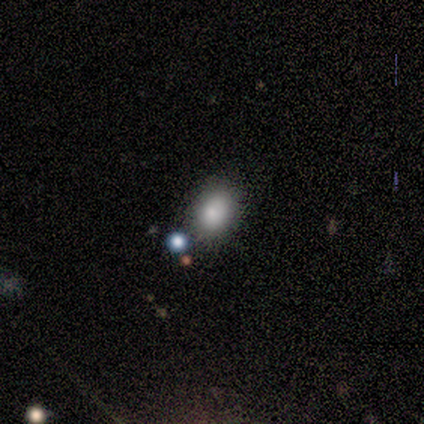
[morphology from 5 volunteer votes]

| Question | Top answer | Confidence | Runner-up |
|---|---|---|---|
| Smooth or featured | smooth | 80% | featured or disk (20%) |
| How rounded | in between | 100% | — |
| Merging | none | 80% | major disturbance (20%) |